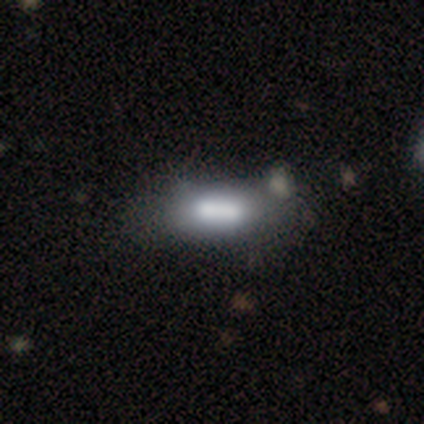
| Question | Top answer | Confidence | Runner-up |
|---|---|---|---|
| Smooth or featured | smooth | 100% | — |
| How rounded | in between | 100% | — |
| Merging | none | 50% | tied: merger (50%) |